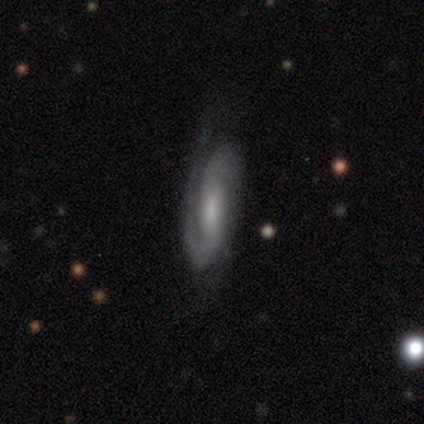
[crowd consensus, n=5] smooth_or_featured: featured or disk (p=0.80) [alt: smooth p=0.20]
disk_edge_on: no (p=1.00)
bar: weak (p=0.50) [alt: strong p=0.25]
has_spiral_arms: yes (p=1.00)
spiral_winding: medium (p=0.50) [alt: tight p=0.25]
spiral_arm_count: 1 (p=0.50) [tied with: 2 p=0.50]
bulge_size: moderate (p=1.00)
merging: none (p=0.60) [alt: minor disturbance p=0.20]